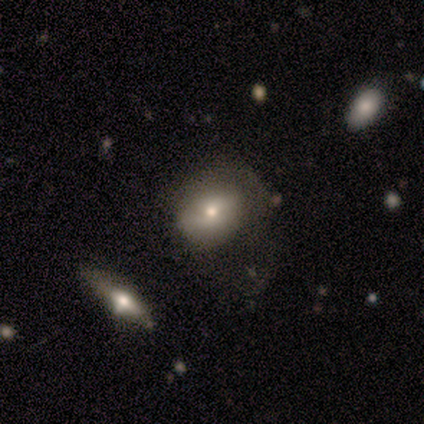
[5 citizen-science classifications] Volunteers were most divided on "how rounded": in between: 75%, round: 25%, cigar-shaped: 0%. More confident: smooth or featured — smooth (80%); merging — major disturbance (80%).